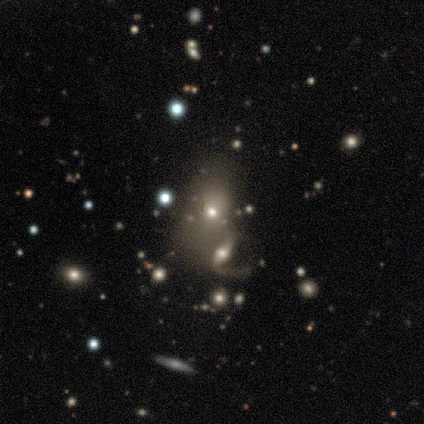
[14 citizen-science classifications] smooth-or-featured: featured or disk: 36% (tied) | star or artifact: 36% (tied) | smooth: 29%
  disk-edge-on: no: 100% | yes: 0%
    bar: no: 60% | weak: 40% | strong: 0%
    has-spiral-arms: no: 60% | yes: 40%
    bulge-size: small: 80% | moderate: 20% | dominant: 0% | large: 0% | none: 0%
  merging: none: 33% (tied) | merger: 33% (tied) | major disturbance: 22% | minor disturbance: 11%